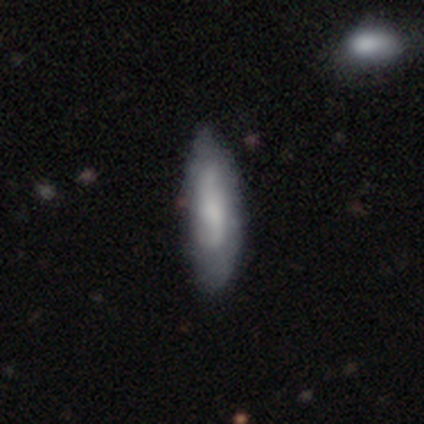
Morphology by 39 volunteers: Smooth or featured? smooth (56%)
How rounded? in between (50%, tied with cigar-shaped)
Merging? none (32%)